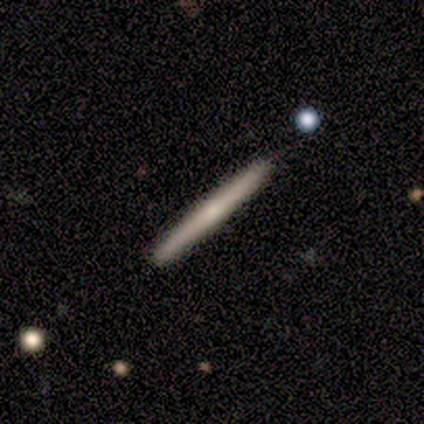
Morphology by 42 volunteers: smooth_or_featured: featured or disk (p=0.67) [alt: smooth p=0.29]
disk_edge_on: yes (p=1.00)
edge_on_bulge: rounded (p=0.57) [alt: none p=0.39]
merging: none (p=0.95) [alt: minor disturbance p=0.03]